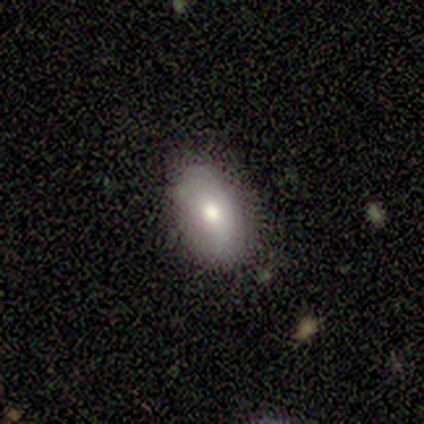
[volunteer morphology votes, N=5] A smooth galaxy with no disk features (80%) that is in between round and cigar-shaped (100%). Merging: none (60%).